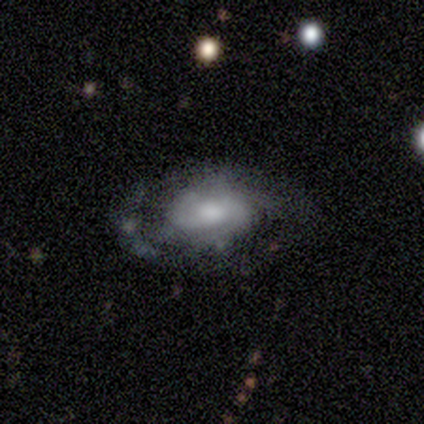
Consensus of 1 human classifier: Q: Smooth or featured?
A: featured or disk (100%)
Q: Edge-on disk?
A: no (100%)
Q: Bar?
A: strong (100%)
Q: Spiral arms?
A: yes (100%)
Q: Spiral winding?
A: medium (100%)
Q: Spiral arm count?
A: 2 (100%)
Q: Bulge size?
A: moderate (100%)
Q: Merging?
A: none (100%)